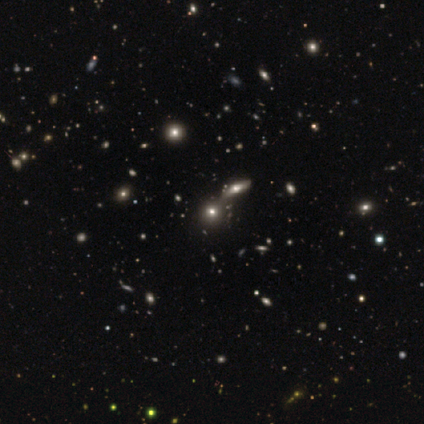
smooth_or_featured: smooth (p=0.50) [tied with: star or artifact p=0.50]
how_rounded: round (p=1.00)
merging: merger (p=1.00)